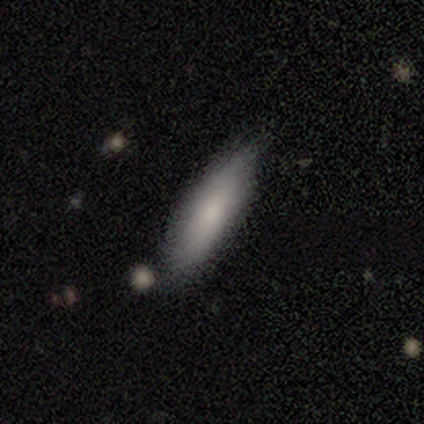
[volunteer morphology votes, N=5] This appears to be a smooth galaxy with no disk features (100%) that is cigar-shaped (80%). Merging: none (40%, tied with minor disturbance).